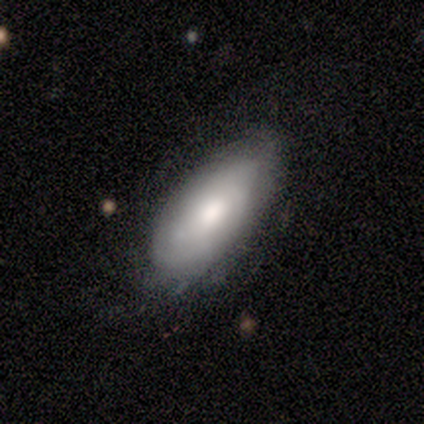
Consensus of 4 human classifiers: Smooth or featured?
  - smooth: 75% *
  - featured or disk: 25%
  - star or artifact: 0%
How rounded?
  - in between: 67% *
  - round: 33%
  - cigar-shaped: 0%
Merging?
  - none: 50% * (tied)
  - minor disturbance: 50% * (tied)
  - major disturbance: 0%
  - merger: 0%